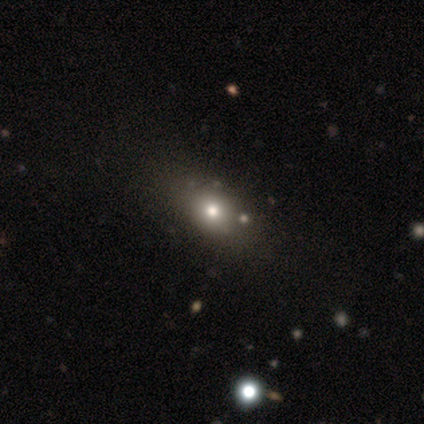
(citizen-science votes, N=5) smooth 80%, featured or disk 20%, star or artifact 0%. Down the decision tree: how rounded — in between (75%); merging — minor disturbance (60%).